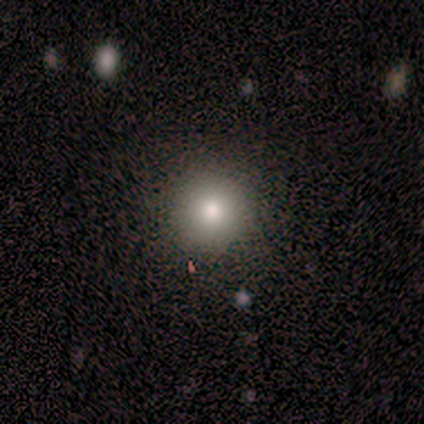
smooth_or_featured: smooth (p=0.75) [alt: star or artifact p=0.25]
how_rounded: round (p=0.67) [alt: in between p=0.33]
merging: none (p=1.00)